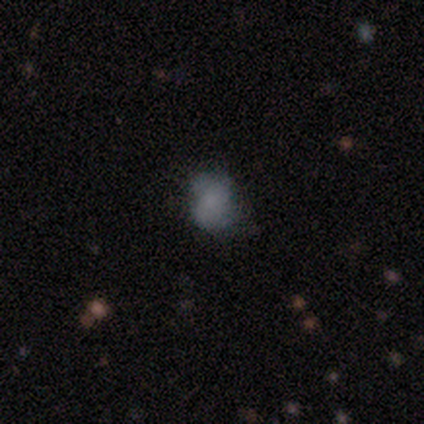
smooth_or_featured: smooth (p=1.00)
how_rounded: round (p=0.60) [alt: in between p=0.40]
merging: none (p=0.40) [tied with: major disturbance p=0.40]